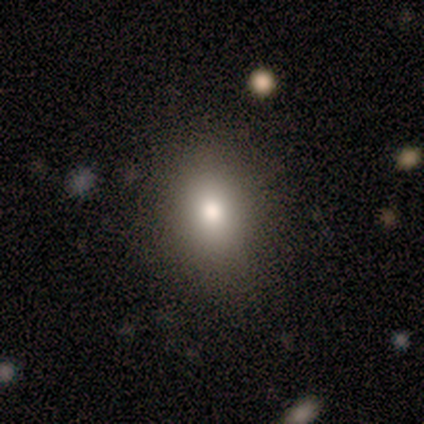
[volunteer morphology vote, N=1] Overall: smooth (100%). How rounded: round (100%). Merging: none (100%).